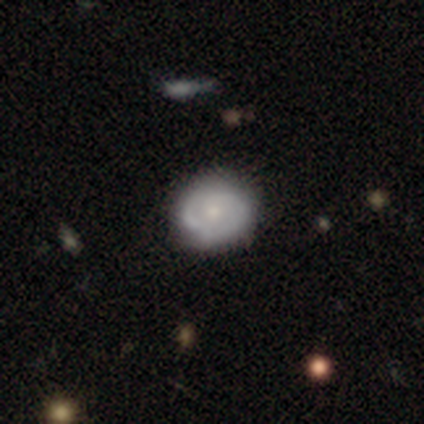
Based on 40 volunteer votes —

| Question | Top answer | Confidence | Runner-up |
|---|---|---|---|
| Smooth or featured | featured or disk | 70% | smooth (22%) |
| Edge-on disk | no | 100% | — |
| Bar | no | 71% | weak (29%) |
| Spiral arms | yes | 75% | no (25%) |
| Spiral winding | tight | 57% | medium (29%) |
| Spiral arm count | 2 | 57% | can't tell (19%) |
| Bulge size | small | 54% | moderate (32%) |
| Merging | none | 62% | minor disturbance (14%) |